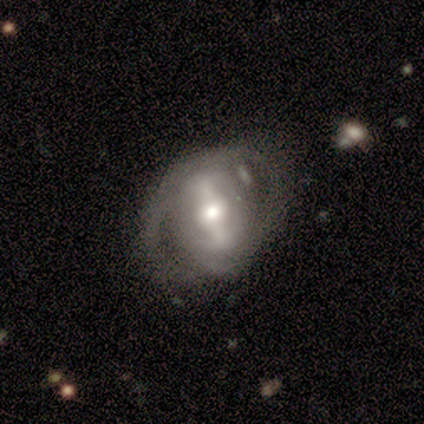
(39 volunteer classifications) Smooth or featured?
  - featured or disk: 85% *
  - smooth: 15%
  - star or artifact: 0%
Edge-on disk?
  - no: 94% *
  - yes: 6%
Bar?
  - strong: 55% *
  - weak: 29%
  - no: 16%
Spiral arms?
  - yes: 58% *
  - no: 42%
Spiral winding?
  - tight: 44% *
  - loose: 33%
  - medium: 22%
Spiral arm count?
  - 2: 50% *
  - can't tell: 33%
  - 1: 17%
  - 3: 0%
  - 4: 0%
  - more than 4: 0%
Bulge size?
  - moderate: 48% *
  - large: 23%
  - small: 23%
  - dominant: 6%
  - none: 0%
Merging?
  - none: 59% *
  - minor disturbance: 26%
  - major disturbance: 10%
  - merger: 5%